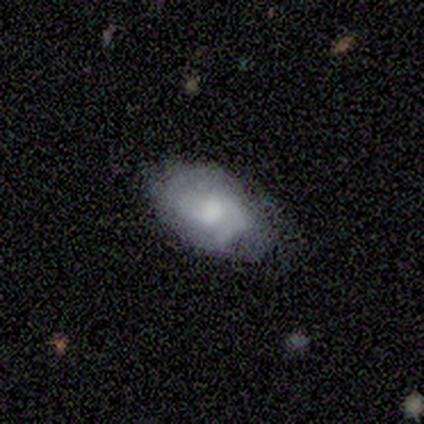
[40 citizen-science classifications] This is possibly a featured or disk galaxy (50%). It is clearly not viewed edge-on (85%). Bar: likely no (71%). Spiral arm pattern: likely yes (76%). Spiral arm count: possibly 2 (46%). Spiral winding: possibly medium (54%). Central bulge: possibly moderate (47%). Merging: possibly none (59%).